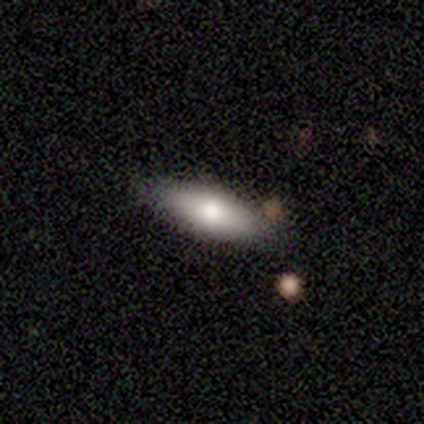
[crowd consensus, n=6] Morphology: type=smooth (50%, tied with featured or disk); roundness=in between (100%); merging=none (83%).